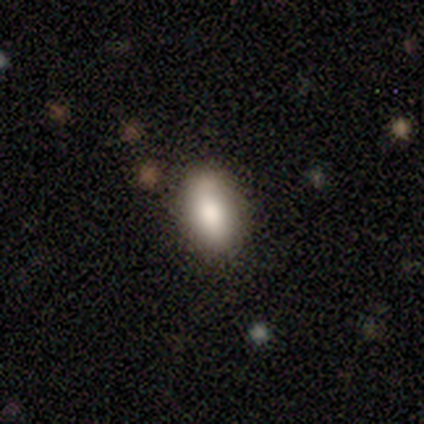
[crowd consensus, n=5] Overall: smooth (100%). How rounded: in between (100%). Merging: none (80%).